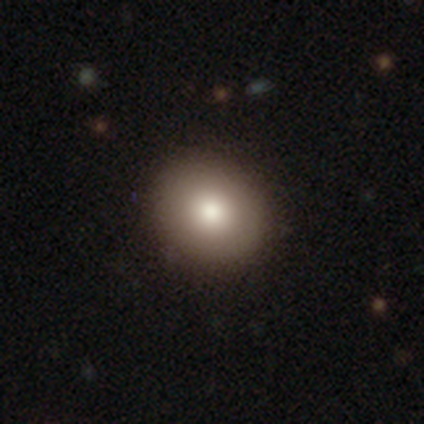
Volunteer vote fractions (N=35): Q: Smooth or featured?
A: smooth (83%); runner-up: featured or disk (9%)
Q: How rounded?
A: round (76%); runner-up: in between (24%)
Q: Merging?
A: none (78%); runner-up: minor disturbance (19%)